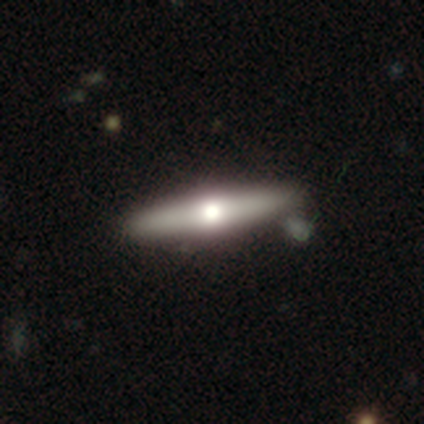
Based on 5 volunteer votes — Q: Smooth or featured?
A: smooth (60%); runner-up: featured or disk (40%)
Q: How rounded?
A: cigar-shaped (100%)
Q: Merging?
A: none (40%); runner-up: minor disturbance (20%)